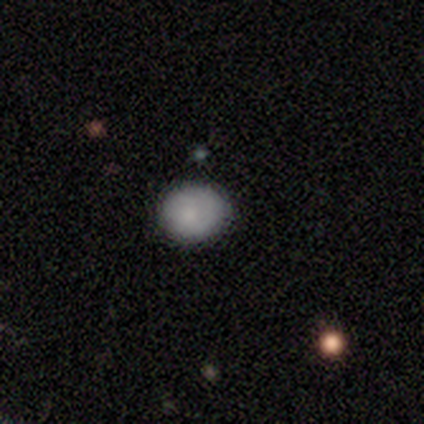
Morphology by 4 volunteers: This is clearly a smooth galaxy (100%). How rounded: possibly round (50%, tied with in between). Merging: clearly none (100%).